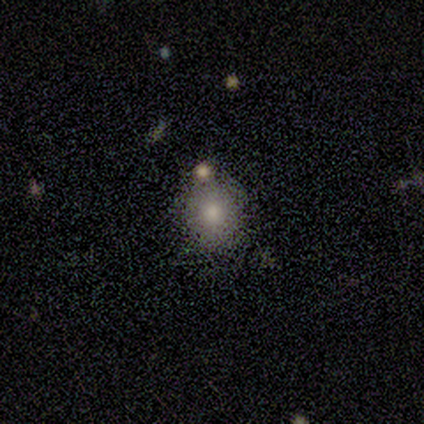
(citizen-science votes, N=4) smooth-or-featured: smooth: 100% | featured or disk: 0% | star or artifact: 0%
  how-rounded: round: 75% | in between: 25% | cigar-shaped: 0%
  merging: none: 75% | minor disturbance: 25% | major disturbance: 0% | merger: 0%